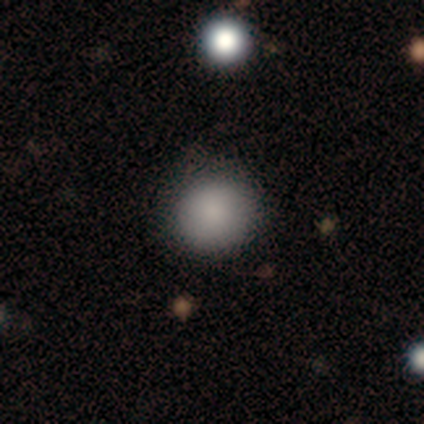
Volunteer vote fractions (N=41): Smooth or featured? 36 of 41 (88%) said smooth. How rounded? 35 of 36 (97%) said round. Merging? 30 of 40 (75%) said none.